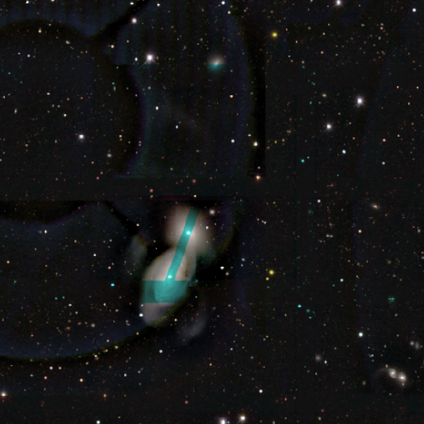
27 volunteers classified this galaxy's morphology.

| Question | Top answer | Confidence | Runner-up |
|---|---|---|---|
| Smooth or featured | smooth | 41% | tied: featured or disk (41%) |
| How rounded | in between | 100% | — |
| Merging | merger | 100% | — |